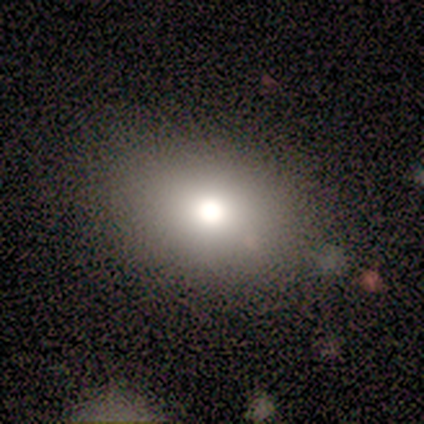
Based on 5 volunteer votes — smooth_or_featured: smooth (p=0.40) [tied with: featured or disk p=0.40]
how_rounded: in between (p=1.00)
merging: none (p=1.00)